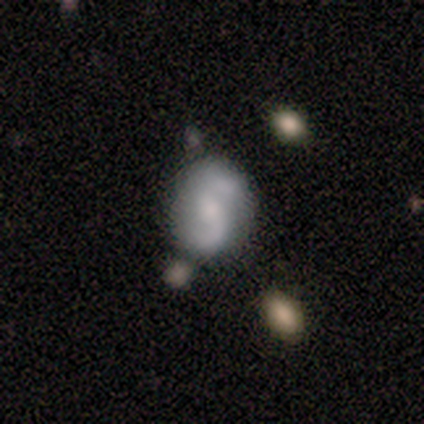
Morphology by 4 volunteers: A featured or disk galaxy (100%) with no bar (75%), 2 (100%) loose (75%) spiral arms (100%) and a moderate central bulge (50%). Merging: none (100%).